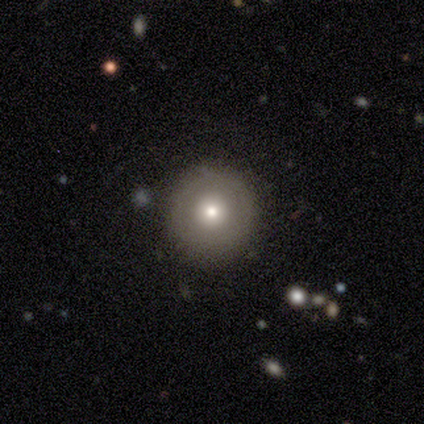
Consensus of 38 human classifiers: This appears to be a smooth galaxy with no disk features (58%) that is round (91%). Merging: none (82%).